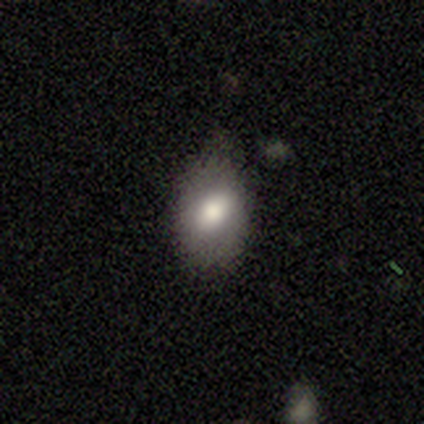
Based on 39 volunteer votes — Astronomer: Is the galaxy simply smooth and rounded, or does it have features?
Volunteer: smooth — 74%.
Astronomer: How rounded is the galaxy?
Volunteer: in between — 76%.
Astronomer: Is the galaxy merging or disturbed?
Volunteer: none — 68%.